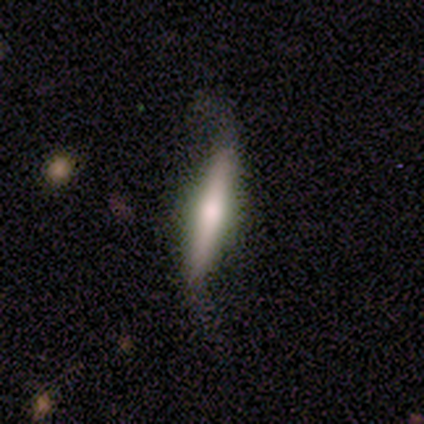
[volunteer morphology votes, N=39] This appears to be a featured or disk galaxy (62%) viewed edge-on (79%) with a rounded central bulge (68%). Merging: none (49%).